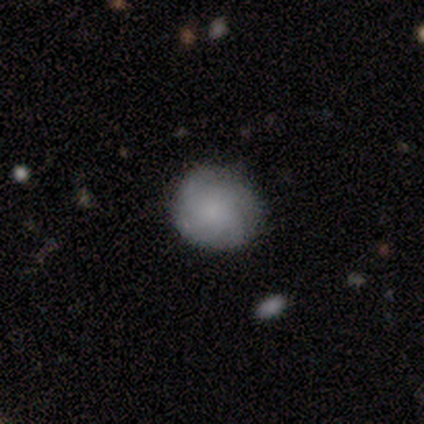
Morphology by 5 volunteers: Smooth or featured: smooth — 80% (featured or disk — 20%)
How rounded: round — 75% (in between — 25%)
Merging: none — 80% (minor disturbance — 20%)